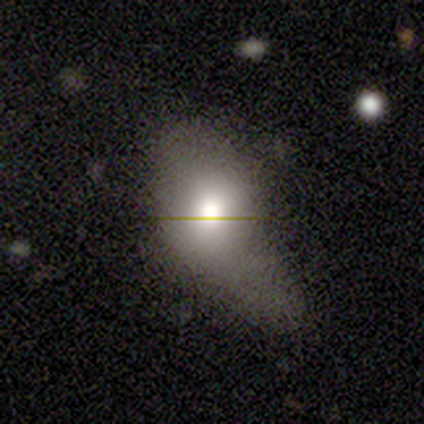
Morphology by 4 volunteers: smooth 100%, featured or disk 0%, star or artifact 0%. Down the decision tree: how rounded — round (50%, tied with in between); merging — major disturbance (50%).